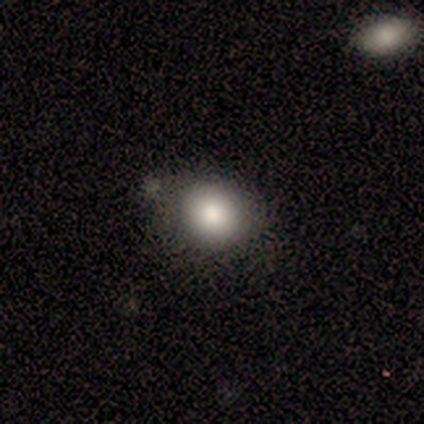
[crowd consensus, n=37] Smooth or featured: smooth — 84% (star or artifact — 11%)
How rounded: round — 68% (in between — 32%)
Merging: none — 67% (minor disturbance — 24%)